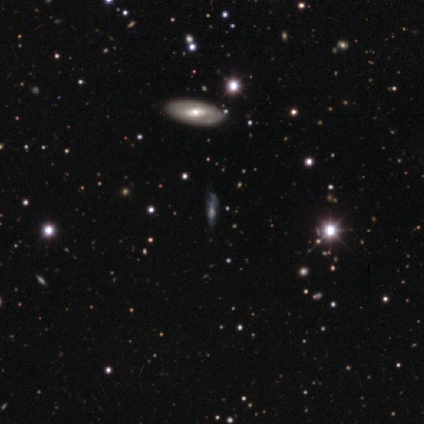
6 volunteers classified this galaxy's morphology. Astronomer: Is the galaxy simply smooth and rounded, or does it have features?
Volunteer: smooth — 33%, tied with featured or disk and star or artifact at 33%.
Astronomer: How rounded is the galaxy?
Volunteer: cigar-shaped — 100%.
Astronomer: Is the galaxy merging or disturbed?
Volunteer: none — 50%, tied with minor disturbance at 50%.